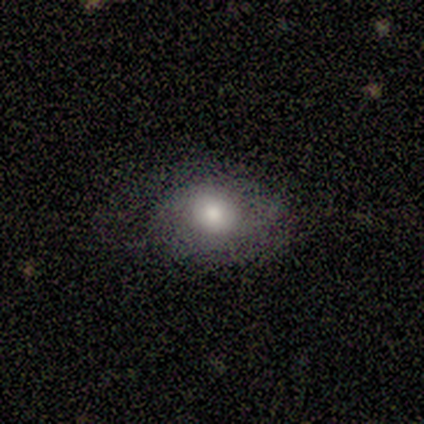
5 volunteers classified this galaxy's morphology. A featured or disk galaxy (60%) with no bar (100%), no spiral arms (100%) and a large central bulge (50%, tied with moderate).

Vote fractions:
- Smooth or featured? featured or disk: 60% / smooth: 20% / star or artifact: 20%
- Edge-on disk? no: 67% / yes: 33%
- Bar? no: 100% / strong: 0% / weak: 0%
- Spiral arms? no: 100% / yes: 0%
- Bulge size? large: 50% (tied) / moderate: 50% (tied) / dominant: 0% / small: 0% / none: 0%
- Merging? none: 50% (tied) / major disturbance: 50% (tied) / minor disturbance: 0% / merger: 0%